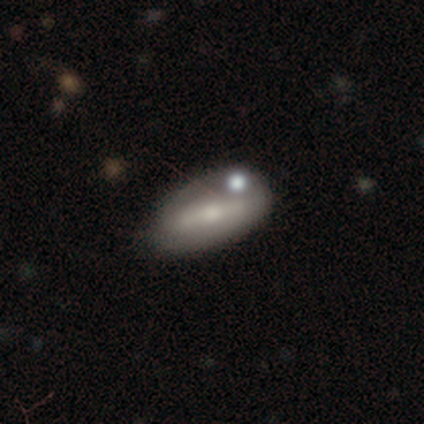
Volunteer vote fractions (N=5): smooth-or-featured: smooth: 60% | featured or disk: 40% | star or artifact: 0%
  how-rounded: in between: 67% | cigar-shaped: 33% | round: 0%
  merging: none: 100% | minor disturbance: 0% | major disturbance: 0% | merger: 0%